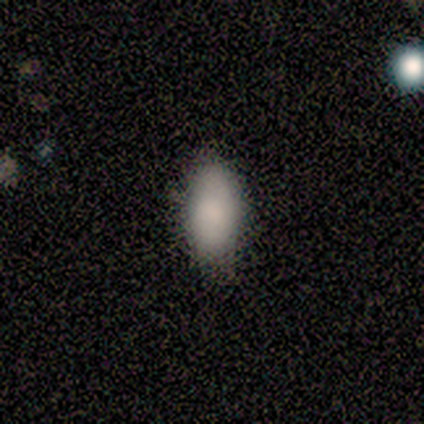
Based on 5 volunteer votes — Smooth or featured: smooth — 100%
How rounded: in between — 100%
Merging: none — 60% (minor disturbance — 40%)